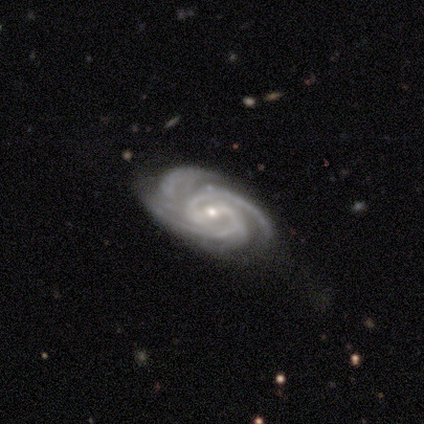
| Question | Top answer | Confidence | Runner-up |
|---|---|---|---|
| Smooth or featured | featured or disk | 100% | — |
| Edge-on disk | no | 100% | — |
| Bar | weak | 50% | strong (25%) |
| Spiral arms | yes | 100% | — |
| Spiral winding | tight | 75% | medium (25%) |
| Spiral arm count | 3 | 75% | 2 (25%) |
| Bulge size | small | 75% | moderate (25%) |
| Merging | none | 50% | minor disturbance (25%) |